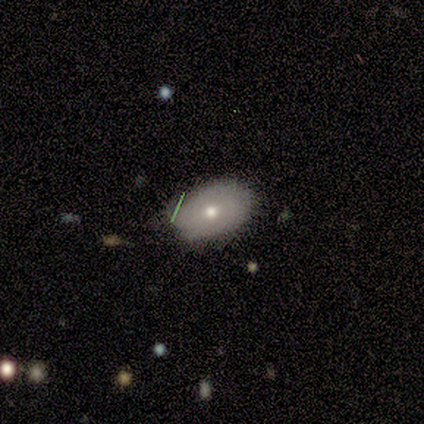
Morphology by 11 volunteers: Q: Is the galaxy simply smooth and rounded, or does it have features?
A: smooth — 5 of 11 (45%, tied with featured or disk).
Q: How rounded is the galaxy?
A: in between — 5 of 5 (100%).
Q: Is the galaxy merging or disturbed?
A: none — 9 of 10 (90%).